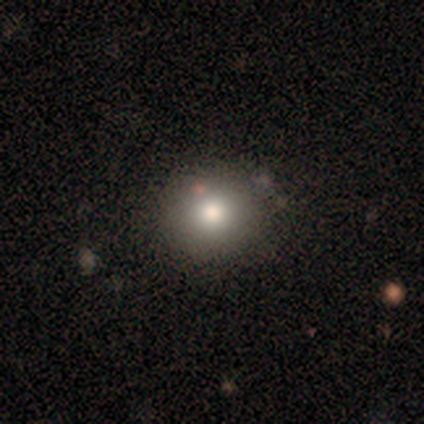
Smooth or featured? smooth (78%)
How rounded? round (94%)
Merging? none (73%)